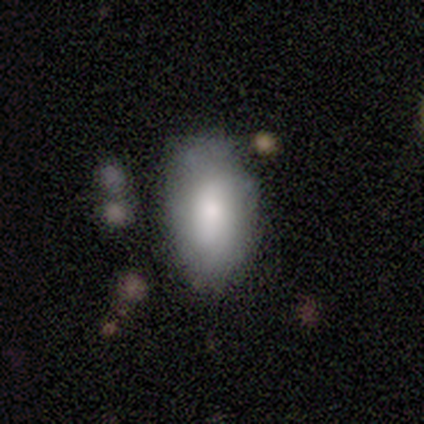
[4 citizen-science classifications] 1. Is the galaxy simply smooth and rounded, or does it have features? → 100% smooth, 0% featured or disk, 0% star or artifact.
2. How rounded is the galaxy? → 100% in between, 0% round, 0% cigar-shaped.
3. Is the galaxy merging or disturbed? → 75% minor disturbance, 25% none, 0% major disturbance, 0% merger.